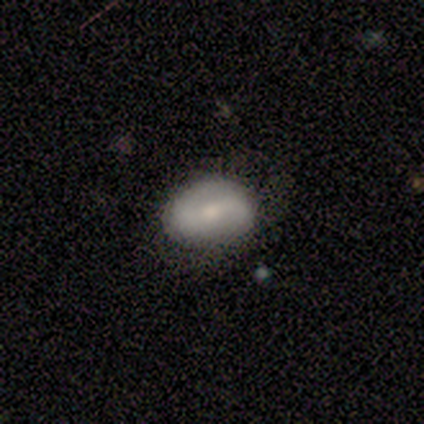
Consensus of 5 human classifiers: Morphology: type=smooth (60%); roundness=in between (67%); merging=none (80%).